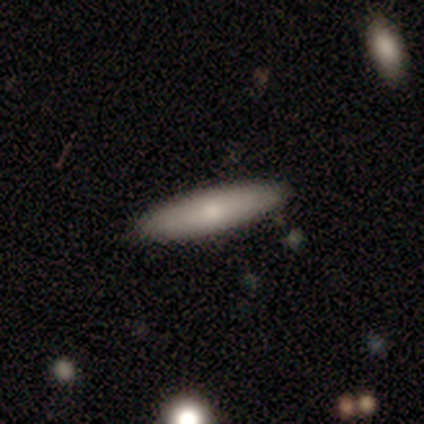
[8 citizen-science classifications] smooth_or_featured: smooth (p=0.75) [alt: featured or disk p=0.25]
how_rounded: cigar-shaped (p=1.00)
merging: none (p=1.00)